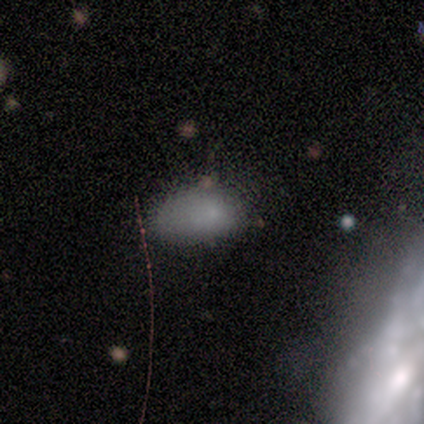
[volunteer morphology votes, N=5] smooth_or_featured: smooth (p=0.80) [alt: star or artifact p=0.20]
how_rounded: in between (p=1.00)
merging: none (p=0.50) [tied with: minor disturbance p=0.50]